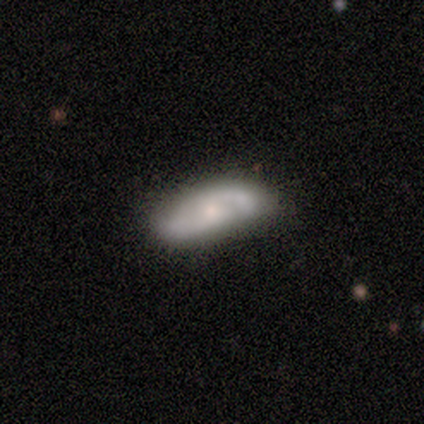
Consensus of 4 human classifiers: Q: Smooth or featured?
A: featured or disk (100%)
Q: Edge-on disk?
A: no (75%); runner-up: yes (25%)
Q: Bar?
A: weak (100%)
Q: Spiral arms?
A: yes (100%)
Q: Spiral winding?
A: medium (67%); runner-up: loose (33%)
Q: Spiral arm count?
A: 2 (100%)
Q: Bulge size?
A: moderate (67%); runner-up: small (33%)
Q: Merging?
A: none (75%); runner-up: major disturbance (25%)